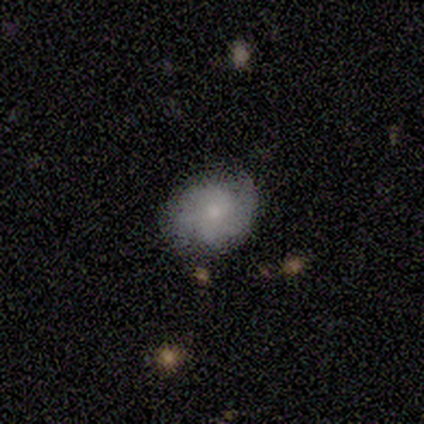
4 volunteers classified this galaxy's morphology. Smooth or featured? smooth (50%)
How rounded? round (100%)
Merging? none (100%)